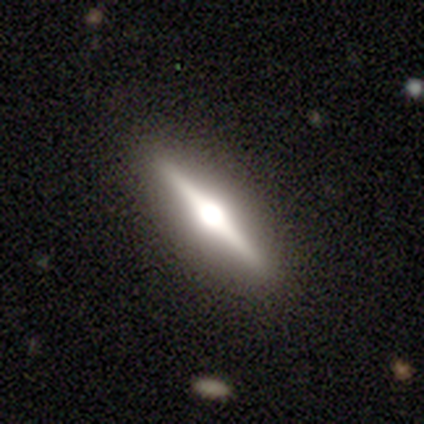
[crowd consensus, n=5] This is clearly a featured or disk galaxy (100%). It is clearly viewed edge-on (100%). Edge-on bulge: clearly rounded (80%). Merging: clearly none (100%).